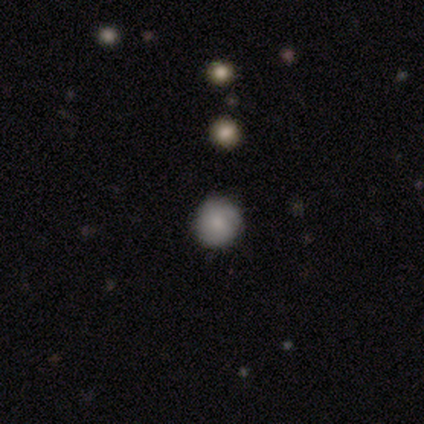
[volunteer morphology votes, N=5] A smooth galaxy with no disk features (40%, tied with featured or disk) that is round (100%).

Vote fractions:
- Smooth or featured? smooth: 40% (tied) / featured or disk: 40% (tied) / star or artifact: 20%
- How rounded? round: 100% / in between: 0% / cigar-shaped: 0%
- Merging? none: 100% / minor disturbance: 0% / major disturbance: 0% / merger: 0%